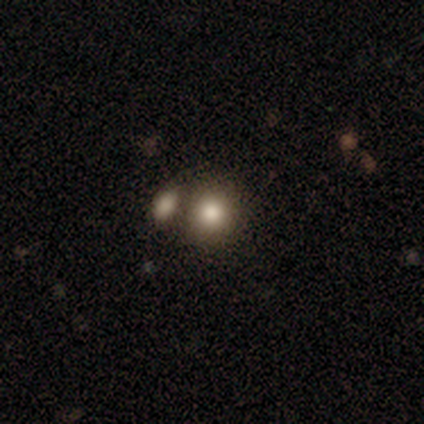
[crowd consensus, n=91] Morphology: type=smooth (74%); roundness=round (81%); merging=none (62%).